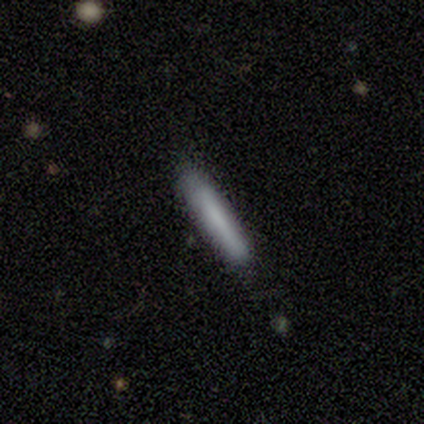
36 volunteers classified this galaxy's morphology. smooth-or-featured: smooth: 75% | featured or disk: 14% | star or artifact: 11%
  how-rounded: cigar-shaped: 93% | in between: 7% | round: 0%
  merging: none: 81% | minor disturbance: 19% | major disturbance: 0% | merger: 0%